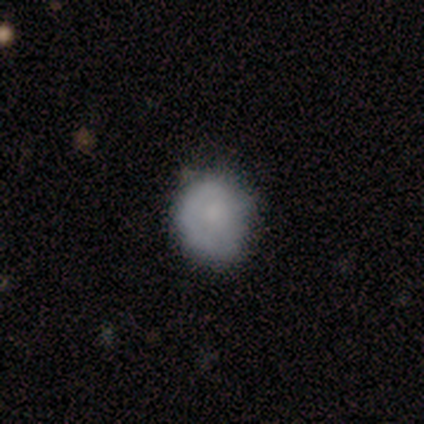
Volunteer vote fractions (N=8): Q: Smooth or featured?
A: smooth (50%); runner-up: featured or disk (25%)
Q: How rounded?
A: round (100%)
Q: Merging?
A: none (67%); runner-up: minor disturbance (33%)